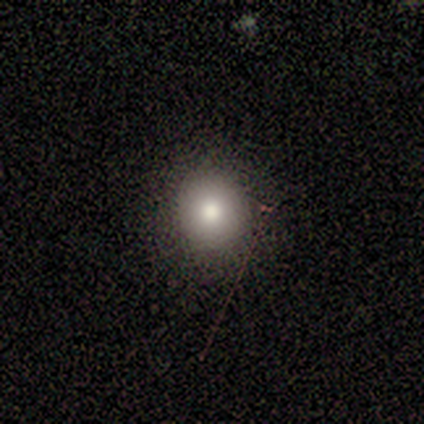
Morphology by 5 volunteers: A smooth galaxy with no disk features (80%) that is round (75%). Merging: none (100%).